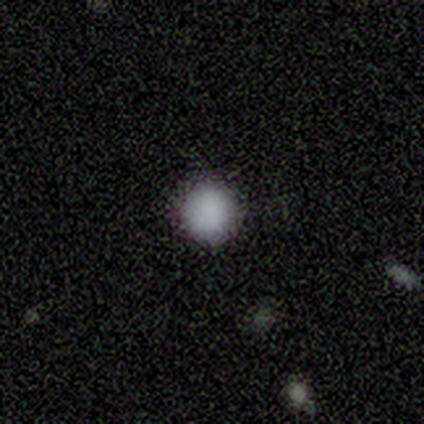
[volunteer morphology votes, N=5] A smooth galaxy with no disk features (100%) that is round (100%).

Vote fractions:
- Smooth or featured? smooth: 100% / featured or disk: 0% / star or artifact: 0%
- How rounded? round: 100% / in between: 0% / cigar-shaped: 0%
- Merging? none: 80% / minor disturbance: 20% / major disturbance: 0% / merger: 0%